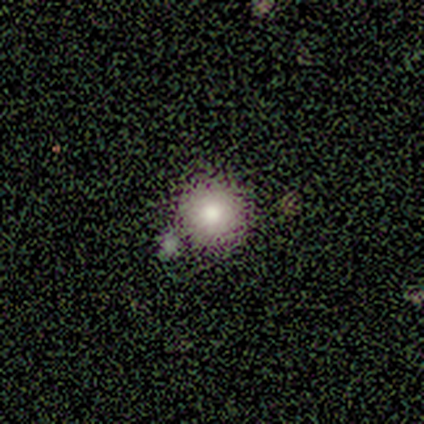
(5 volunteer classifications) Overall: smooth (80%). How rounded: round (100%). Merging: none (40%, tied with minor disturbance).